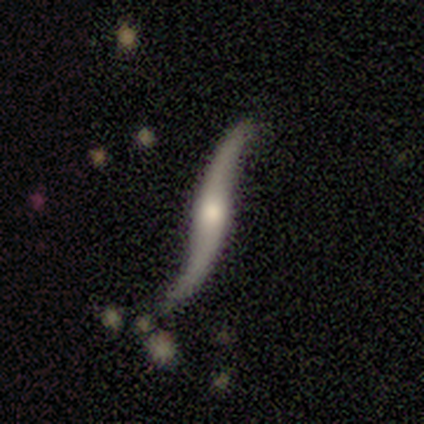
A featured or disk galaxy (100%) with no bar (83%), 2 (100%) loose (100%) spiral arms (83%) and a moderate central bulge (67%).

Vote fractions:
- Smooth or featured? featured or disk: 100% / smooth: 0% / star or artifact: 0%
- Edge-on disk? no: 55% / yes: 45%
- Bar? no: 83% / strong: 17% / weak: 0%
- Spiral arms? yes: 83% / no: 17%
- Spiral winding? loose: 100% / tight: 0% / medium: 0%
- Spiral arm count? 2: 100% / 1: 0% / 3: 0% / 4: 0% / more than 4: 0% / can't tell: 0%
- Bulge size? moderate: 67% / dominant: 17% / large: 17% / small: 0% / none: 0%
- Merging? none: 82% / minor disturbance: 18% / major disturbance: 0% / merger: 0%